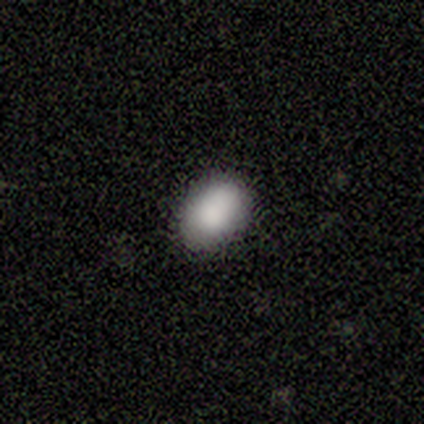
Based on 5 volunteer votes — Smooth or featured? smooth (60%)
How rounded? in between (67%)
Merging? none (75%)